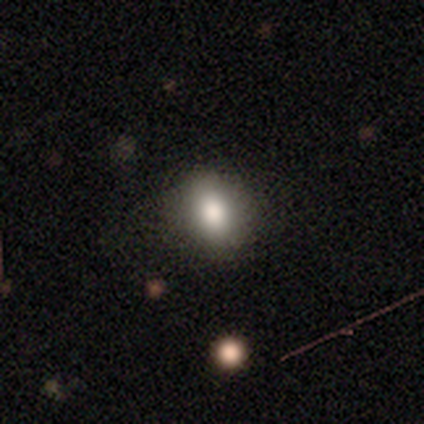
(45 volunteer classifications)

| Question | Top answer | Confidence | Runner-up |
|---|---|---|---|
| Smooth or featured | smooth | 78% | star or artifact (16%) |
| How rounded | round | 54% | in between (40%) |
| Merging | none | 87% | minor disturbance (13%) |